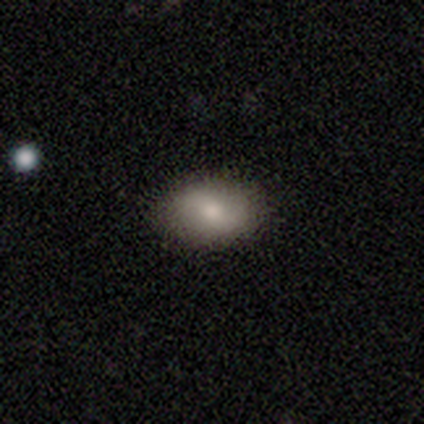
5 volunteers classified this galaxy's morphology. Volunteers were most divided on "smooth or featured": featured or disk: 60%, smooth: 40%, star or artifact: 0%. More confident: edge-on disk — no (100%); bar — weak (100%); spiral arms — yes (100%); spiral arm count — 2 (100%); merging — none (100%); spiral winding — tight (67%); bulge size — moderate (67%).